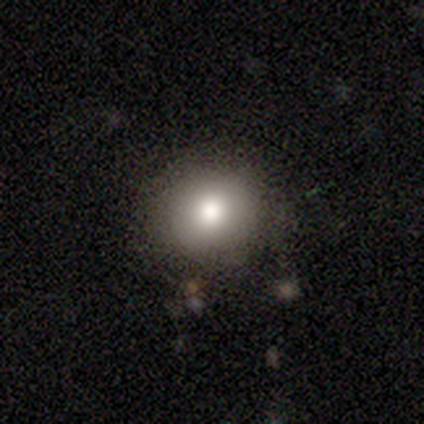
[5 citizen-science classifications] Smooth or featured? 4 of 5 (80%) said smooth. How rounded? 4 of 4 (100%) said round. Merging? 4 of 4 (100%) said none.